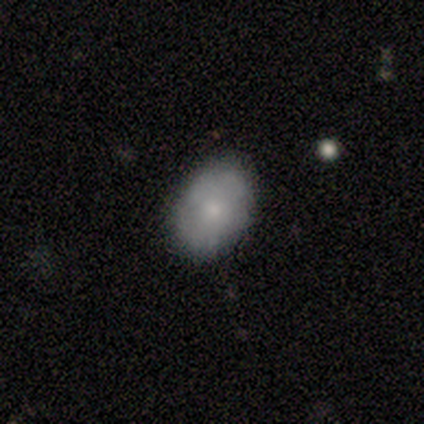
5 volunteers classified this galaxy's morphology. A smooth galaxy with no disk features (60%) that is in between round and cigar-shaped (67%).

Vote fractions:
- Smooth or featured? smooth: 60% / featured or disk: 20% / star or artifact: 20%
- How rounded? in between: 67% / round: 33% / cigar-shaped: 0%
- Merging? none: 100% / minor disturbance: 0% / major disturbance: 0% / merger: 0%